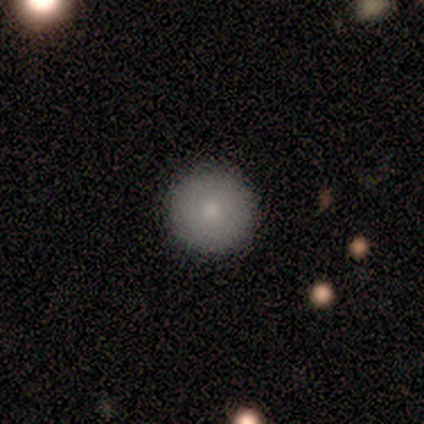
Overall: smooth (100%). How rounded: round (100%). Merging: none (86%).